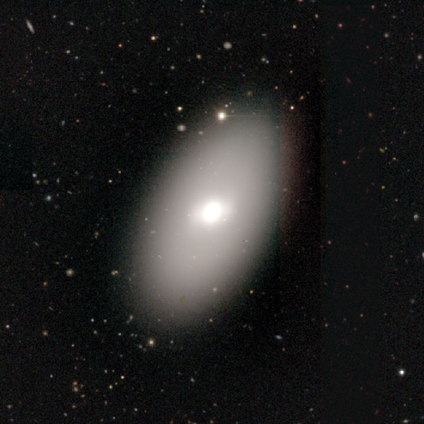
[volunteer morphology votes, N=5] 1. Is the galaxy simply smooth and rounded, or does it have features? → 60% smooth, 20% featured or disk, 20% star or artifact.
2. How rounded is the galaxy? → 100% in between, 0% round, 0% cigar-shaped.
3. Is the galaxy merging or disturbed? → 75% none, 25% major disturbance, 0% minor disturbance, 0% merger.